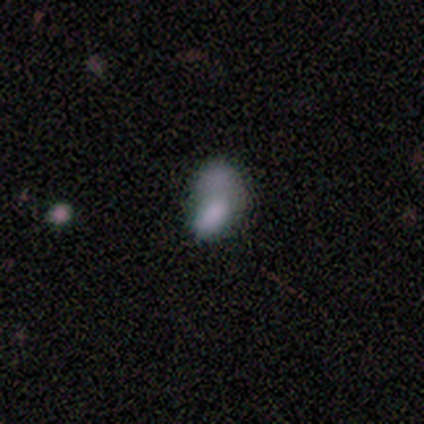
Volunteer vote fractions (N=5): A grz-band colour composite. It shows a smooth galaxy with no disk features (100%) that is in between round and cigar-shaped (100%). Merging: minor disturbance (40%, tied with merger).